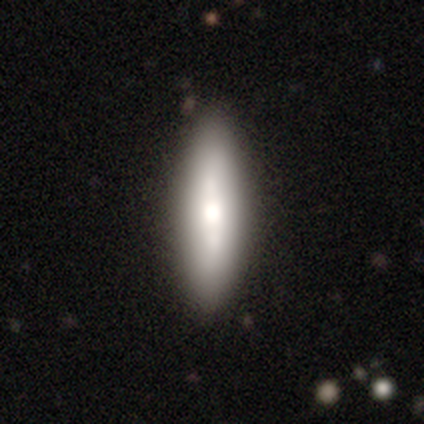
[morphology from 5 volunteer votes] Smooth or featured?
  - featured or disk: 60% *
  - smooth: 40%
  - star or artifact: 0%
Edge-on disk?
  - yes: 100% *
  - no: 0%
Edge-on bulge?
  - rounded: 100% *
  - boxy: 0%
  - none: 0%
Merging?
  - none: 80% *
  - minor disturbance: 20%
  - major disturbance: 0%
  - merger: 0%